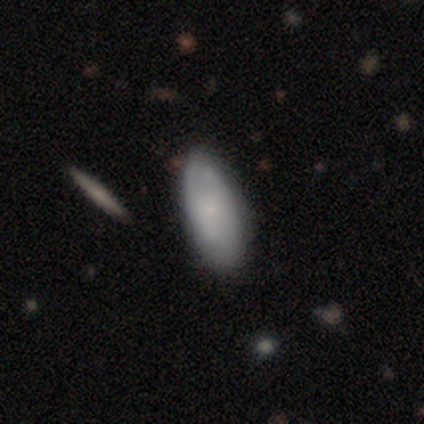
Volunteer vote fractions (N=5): A smooth galaxy with no disk features (80%) that is in between round and cigar-shaped (100%).

Vote fractions:
- Smooth or featured? smooth: 80% / featured or disk: 20% / star or artifact: 0%
- How rounded? in between: 100% / round: 0% / cigar-shaped: 0%
- Merging? none: 80% / minor disturbance: 20% / major disturbance: 0% / merger: 0%